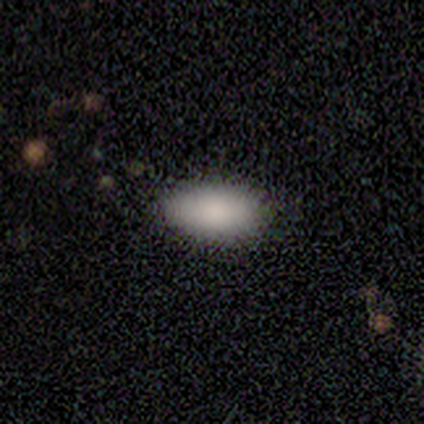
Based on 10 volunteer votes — Smooth or featured? 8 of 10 (80%) said smooth. How rounded? 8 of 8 (100%) said in between. Merging? 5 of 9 (56%) said none.